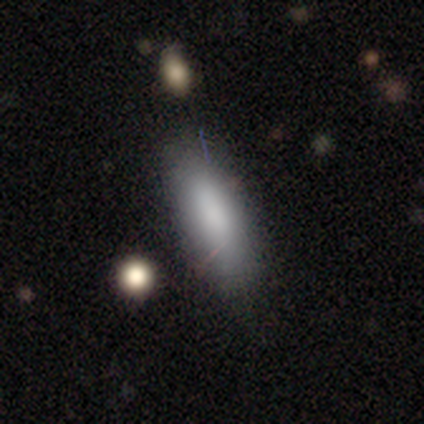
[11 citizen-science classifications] smooth_or_featured: smooth (p=1.00)
how_rounded: in between (p=0.55) [alt: cigar-shaped p=0.45]
merging: none (p=0.82) [alt: minor disturbance p=0.18]